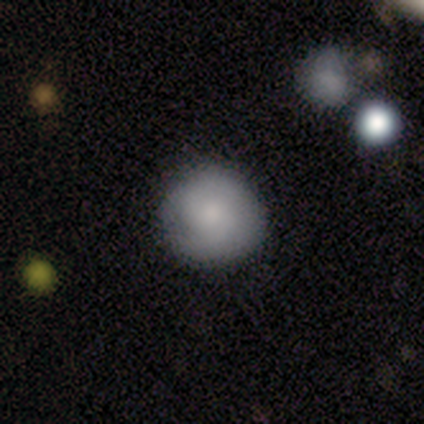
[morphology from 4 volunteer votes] smooth-or-featured: smooth: 75% | featured or disk: 25% | star or artifact: 0%
  how-rounded: round: 100% | in between: 0% | cigar-shaped: 0%
  merging: none: 100% | minor disturbance: 0% | major disturbance: 0% | merger: 0%